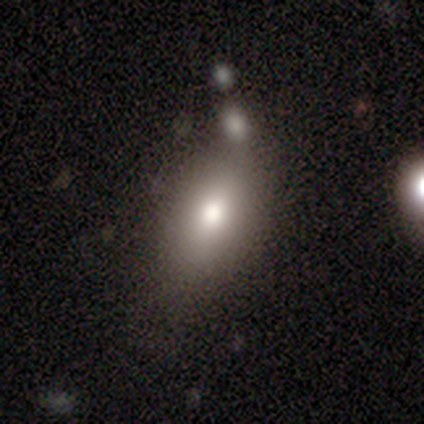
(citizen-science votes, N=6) Q: Smooth or featured?
A: smooth (67%); runner-up: featured or disk (17%)
Q: How rounded?
A: in between (75%); runner-up: round (25%)
Q: Merging?
A: none (60%); runner-up: merger (40%)